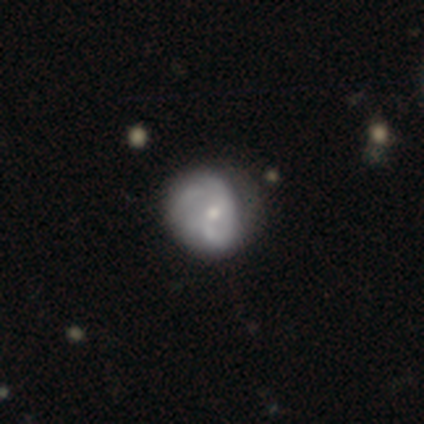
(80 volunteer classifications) Smooth or featured? 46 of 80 (57%) said featured or disk. Edge-on disk? 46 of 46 (100%) said no. Bar? 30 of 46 (65%) said no. Spiral arms? 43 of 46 (93%) said yes. Spiral winding? 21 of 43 (49%) said medium. Spiral arm count? 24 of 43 (56%) said can't tell. Bulge size? 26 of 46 (57%) said small. Merging? 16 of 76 (21%) said none.